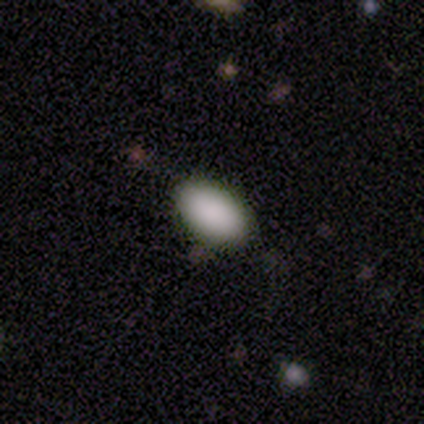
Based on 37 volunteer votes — Volunteers were most divided on "merging": none: 89%, minor disturbance: 6%, major disturbance: 3%, merger: 3%. More confident: smooth or featured — smooth (97%); how rounded — in between (94%).